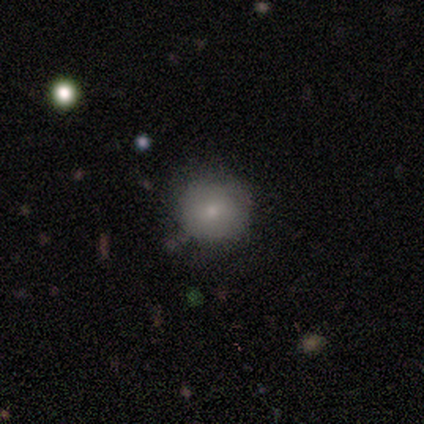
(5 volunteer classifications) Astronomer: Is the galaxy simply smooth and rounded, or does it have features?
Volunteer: smooth — 80%.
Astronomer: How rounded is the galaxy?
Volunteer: round — 100%.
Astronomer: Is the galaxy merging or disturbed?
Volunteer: none — 75%.